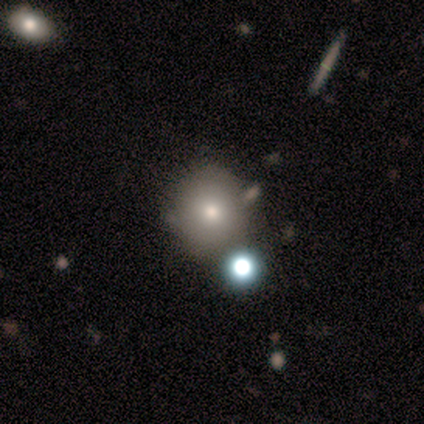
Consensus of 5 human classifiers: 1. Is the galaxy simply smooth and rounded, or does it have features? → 80% smooth, 20% featured or disk, 0% star or artifact.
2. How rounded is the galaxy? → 100% round, 0% in between, 0% cigar-shaped.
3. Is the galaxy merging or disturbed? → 60% none, 40% minor disturbance, 0% major disturbance, 0% merger.